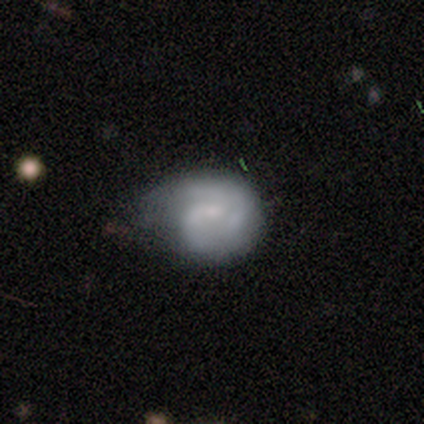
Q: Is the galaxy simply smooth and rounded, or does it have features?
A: featured or disk — 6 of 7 (86%).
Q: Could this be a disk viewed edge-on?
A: no — 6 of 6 (100%).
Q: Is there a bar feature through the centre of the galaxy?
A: weak — 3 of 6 (50%, tied with no).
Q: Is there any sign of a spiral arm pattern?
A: yes — 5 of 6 (83%).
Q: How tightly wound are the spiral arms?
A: medium — 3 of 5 (60%).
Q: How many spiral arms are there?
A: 2 — 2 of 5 (40%).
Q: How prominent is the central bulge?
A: small — 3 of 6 (50%).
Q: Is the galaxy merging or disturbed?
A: minor disturbance — 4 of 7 (57%).